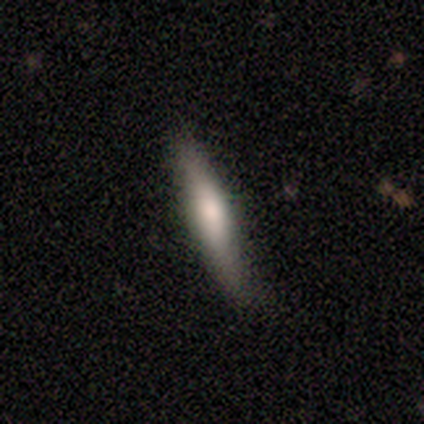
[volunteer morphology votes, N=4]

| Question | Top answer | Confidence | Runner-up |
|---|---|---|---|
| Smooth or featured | smooth | 50% | tied: featured or disk (50%) |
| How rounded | cigar-shaped | 100% | — |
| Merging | none | 100% | — |